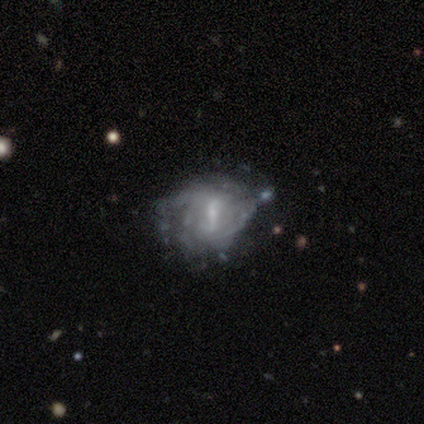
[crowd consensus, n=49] Morphology: type=featured or disk (92%); edge-on=no (98%); bar=strong (52%); spiral arms=yes (84%); winding=tight (49%); arm count=can't tell (54%); bulge=small (61%); merging=none (38%).